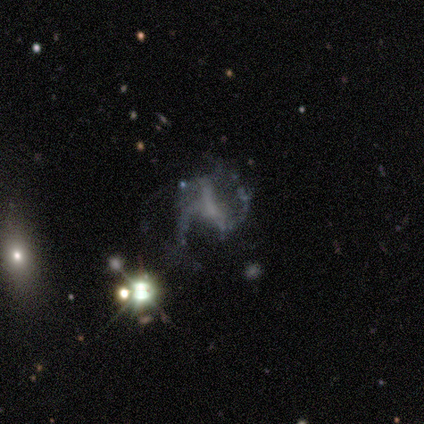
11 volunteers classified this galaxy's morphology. A featured or disk galaxy (64%) with a strong bar (43%), 2 (57%) medium (57%) spiral arms (100%) and no central bulge (57%).

Vote fractions:
- Smooth or featured? featured or disk: 64% / star or artifact: 27% / smooth: 9%
- Edge-on disk? no: 100% / yes: 0%
- Bar? strong: 43% / weak: 29% / no: 29%
- Spiral arms? yes: 100% / no: 0%
- Spiral winding? medium: 57% / loose: 43% / tight: 0%
- Spiral arm count? 2: 57% / 3: 43% / 1: 0% / 4: 0% / more than 4: 0% / can't tell: 0%
- Bulge size? none: 57% / moderate: 29% / small: 14% / dominant: 0% / large: 0%
- Merging? major disturbance: 62% / minor disturbance: 25% / none: 12% / merger: 0%